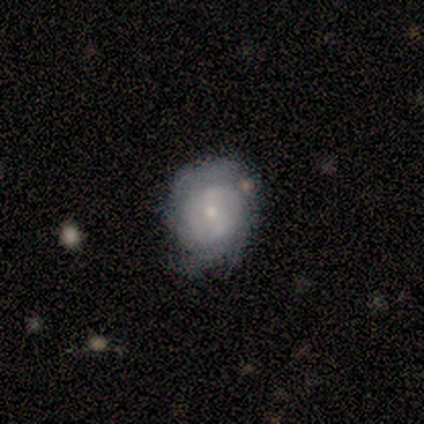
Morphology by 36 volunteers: This appears to be a featured or disk galaxy (67%) with a weak bar (41%), tight (53%) spiral arms (77%) and a small central bulge (64%). Merging: none (59%).